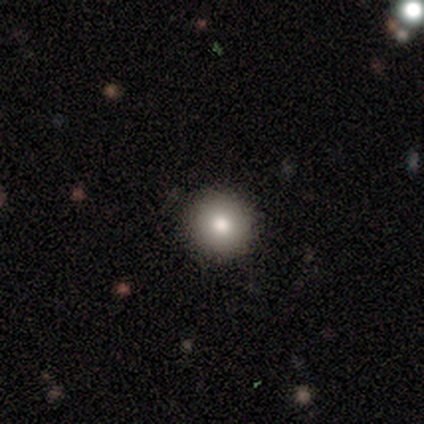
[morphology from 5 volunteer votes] This is clearly a smooth galaxy (80%). How rounded: clearly round (100%). Merging: likely none (75%).